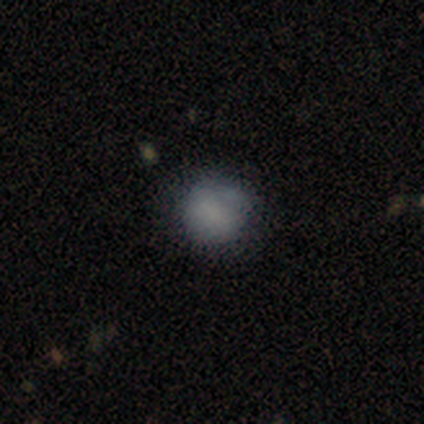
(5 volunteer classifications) smooth_or_featured: smooth (p=0.80) [alt: star or artifact p=0.20]
how_rounded: round (p=0.75) [alt: in between p=0.25]
merging: none (p=1.00)